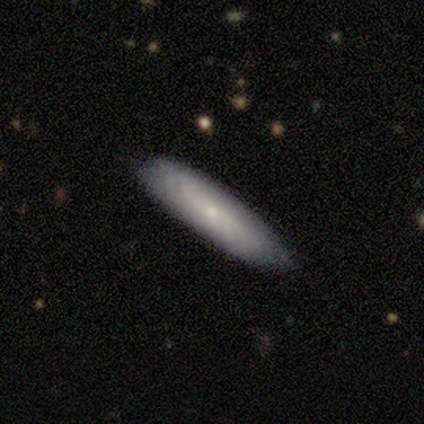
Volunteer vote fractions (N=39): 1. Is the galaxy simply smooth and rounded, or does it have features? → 69% smooth, 28% featured or disk, 3% star or artifact.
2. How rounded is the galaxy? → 70% cigar-shaped, 26% in between, 4% round.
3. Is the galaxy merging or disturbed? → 87% none, 11% minor disturbance, 3% merger, 0% major disturbance.